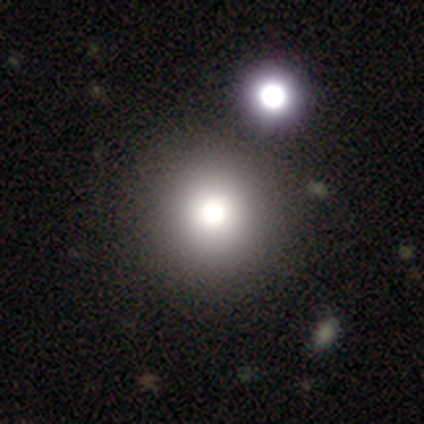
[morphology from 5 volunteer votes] smooth-or-featured: smooth: 100% | featured or disk: 0% | star or artifact: 0%
  how-rounded: round: 100% | in between: 0% | cigar-shaped: 0%
  merging: none: 40% (tied) | merger: 40% (tied) | minor disturbance: 20% | major disturbance: 0%